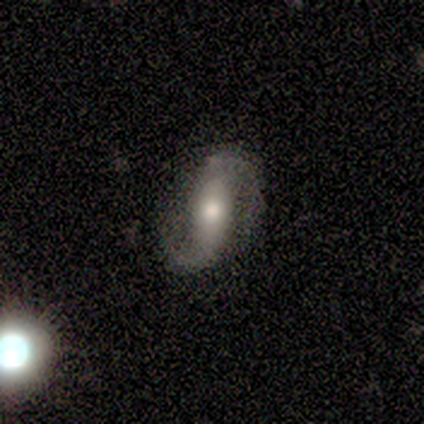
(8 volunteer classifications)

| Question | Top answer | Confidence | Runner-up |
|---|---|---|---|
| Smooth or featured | featured or disk | 100% | — |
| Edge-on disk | no | 100% | — |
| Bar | no | 50% | strong (25%) |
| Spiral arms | yes | 88% | no (12%) |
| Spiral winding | medium | 43% | tight (29%) |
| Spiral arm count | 2 | 100% | — |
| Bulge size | moderate | 75% | large (12%) |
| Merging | none | 75% | minor disturbance (12%) |